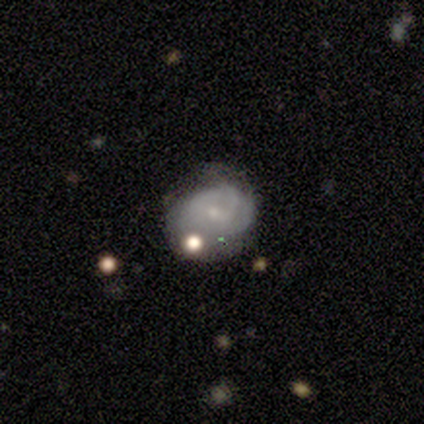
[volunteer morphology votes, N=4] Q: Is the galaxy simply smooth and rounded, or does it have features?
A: smooth — 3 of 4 (75%).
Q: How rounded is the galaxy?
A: in between — 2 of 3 (67%).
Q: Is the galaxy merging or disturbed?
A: minor disturbance — 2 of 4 (50%).